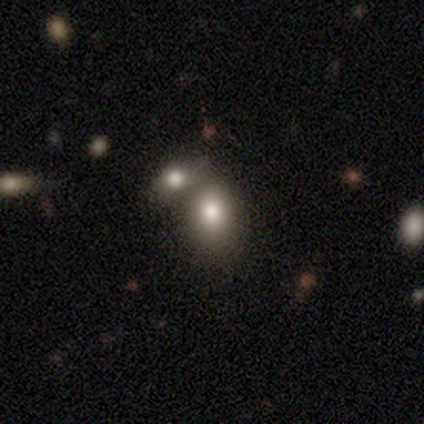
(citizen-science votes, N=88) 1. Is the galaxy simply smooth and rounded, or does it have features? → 82% smooth, 12% star or artifact, 6% featured or disk.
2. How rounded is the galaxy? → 60% in between, 40% round, 0% cigar-shaped.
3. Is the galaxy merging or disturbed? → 56% merger, 36% none, 5% minor disturbance, 3% major disturbance.